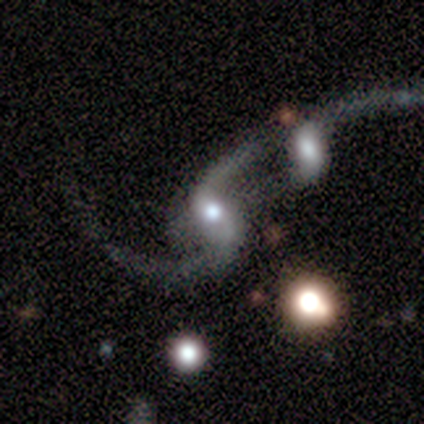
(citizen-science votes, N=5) smooth-or-featured: featured or disk: 100% | smooth: 0% | star or artifact: 0%
  disk-edge-on: no: 100% | yes: 0%
    bar: strong: 80% | no: 20% | weak: 0%
    has-spiral-arms: yes: 100% | no: 0%
      spiral-winding: loose: 100% | tight: 0% | medium: 0%
      spiral-arm-count: 2: 100% | 1: 0% | 3: 0% | 4: 0% | more than 4: 0% | can't tell: 0%
    bulge-size: large: 40% (tied) | moderate: 40% (tied) | small: 20% | dominant: 0% | none: 0%
  merging: merger: 60% | major disturbance: 40% | none: 0% | minor disturbance: 0%